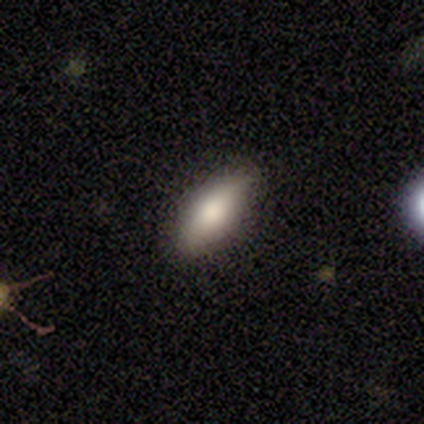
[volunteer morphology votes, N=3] This appears to be a smooth galaxy with no disk features (33%, tied with featured or disk and star or artifact) that is in between round and cigar-shaped (100%). Merging: none (50%, tied with minor disturbance).